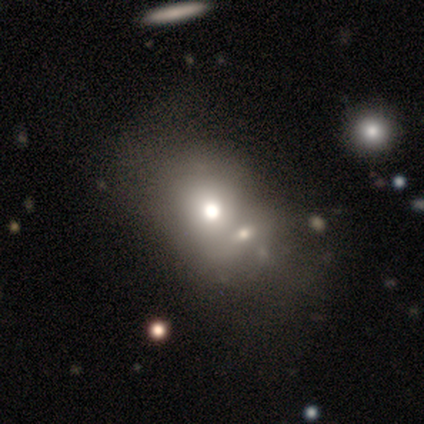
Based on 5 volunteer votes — Morphology: type=smooth (40%, tied with featured or disk); roundness=round (50%, tied with in between); merging=merger (50%).